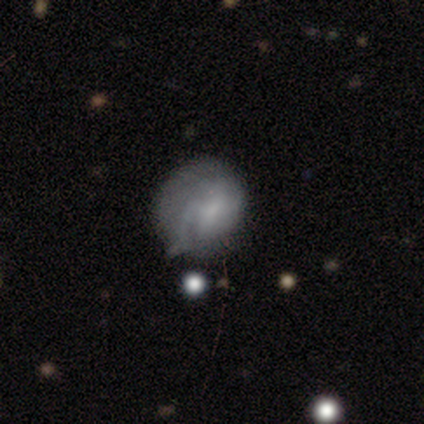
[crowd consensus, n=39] featured or disk 56%, smooth 38%, star or artifact 5%. Down the decision tree: edge-on disk — no (95%); bar — no (57%); spiral arms — yes (71%); spiral arm count — can't tell (33%); spiral winding — tight (53%); bulge size — small (43%, tied with none); merging — none (46%).